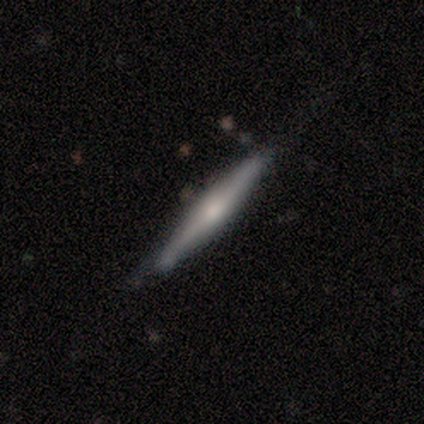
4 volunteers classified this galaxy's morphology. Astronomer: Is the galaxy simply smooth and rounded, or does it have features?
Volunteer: featured or disk — 75%.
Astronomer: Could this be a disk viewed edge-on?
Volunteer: yes — 100%.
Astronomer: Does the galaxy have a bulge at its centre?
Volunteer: rounded — 67%.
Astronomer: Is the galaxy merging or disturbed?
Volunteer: none — 75%.